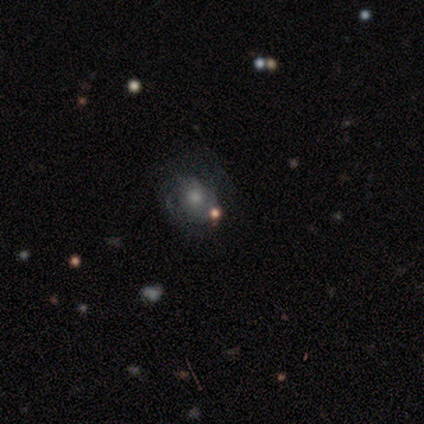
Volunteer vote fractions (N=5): Overall: featured or disk (60%; smooth 20%). Edge-on disk: no (100%). Bar: no (100%). Spiral arms: no (67%; yes 33%). Bulge size: moderate (67%; small 33%). Merging: none (25%, tied with minor disturbance, major disturbance and merger).